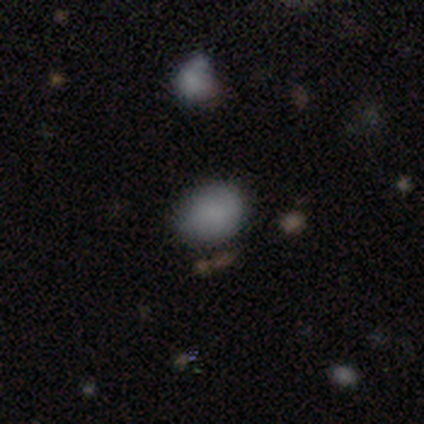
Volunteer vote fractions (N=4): A smooth galaxy with no disk features (75%) that is round (67%). Merging: none (75%).